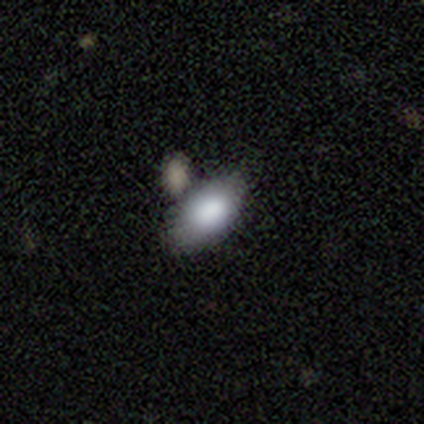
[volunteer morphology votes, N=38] Smooth or featured: smooth — 87% (star or artifact — 8%)
How rounded: in between — 94% (round — 3%)
Merging: none — 49% (merger — 31%)